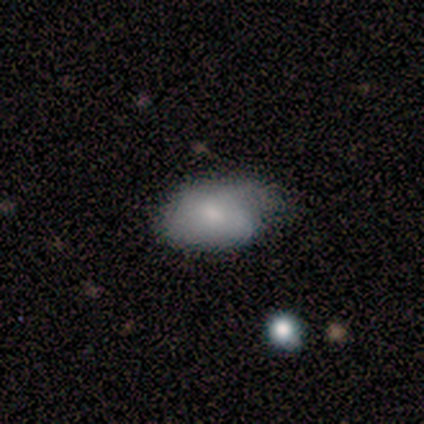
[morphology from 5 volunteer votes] Overall: smooth (60%; featured or disk 40%). How rounded: in between (100%). Merging: none (60%; minor disturbance 40%).